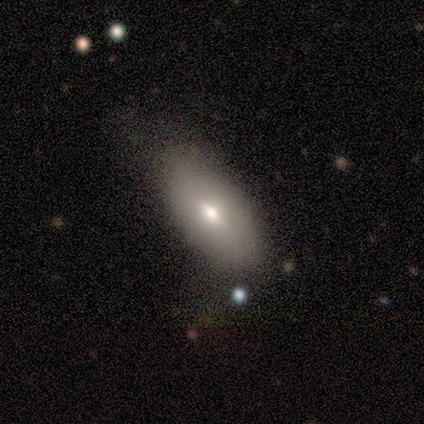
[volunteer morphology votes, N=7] This is possibly a smooth galaxy (57%). How rounded: likely in between (75%). Merging: possibly none (57%).